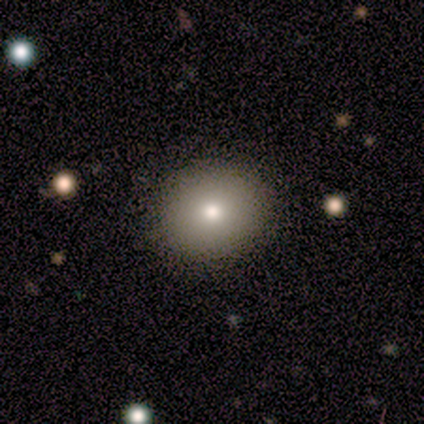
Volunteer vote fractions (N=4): A smooth galaxy with no disk features (75%) that is round (67%). Merging: none (100%).